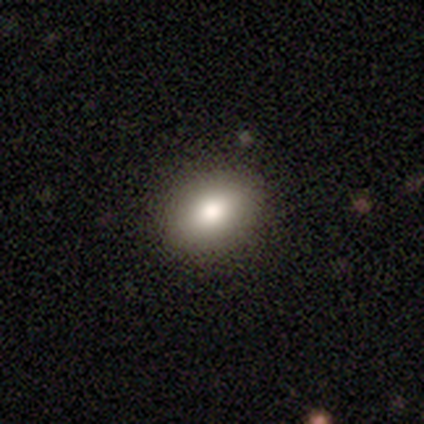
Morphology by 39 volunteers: Smooth or featured? smooth (82%)
How rounded? in between (75%)
Merging? none (74%)